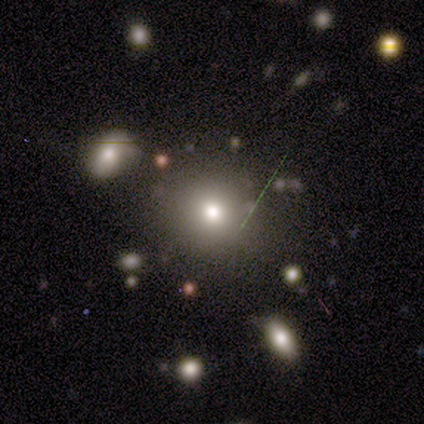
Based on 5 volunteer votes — Morphology: type=star or artifact (60%).